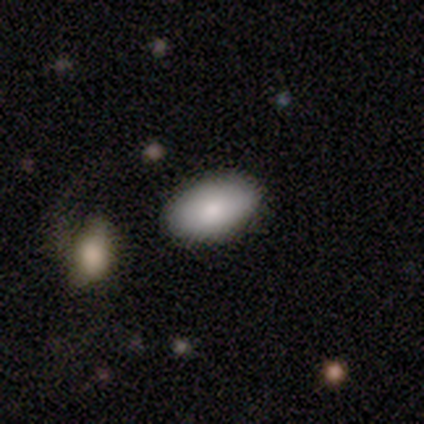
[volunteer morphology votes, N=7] Smooth or featured? smooth (71%)
How rounded? in between (100%)
Merging? none (80%)